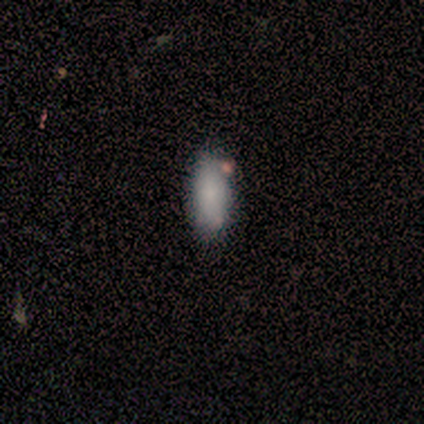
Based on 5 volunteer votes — A smooth galaxy with no disk features (80%) that is in between round and cigar-shaped (75%). Merging: none (60%).